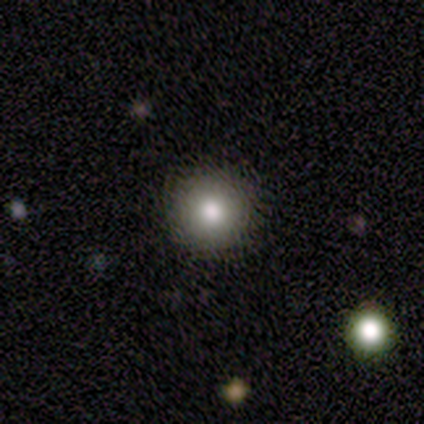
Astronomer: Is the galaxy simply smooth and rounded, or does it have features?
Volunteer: smooth — 100%.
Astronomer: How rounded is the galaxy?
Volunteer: round — 80%.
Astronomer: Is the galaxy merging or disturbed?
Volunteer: none — 80%.